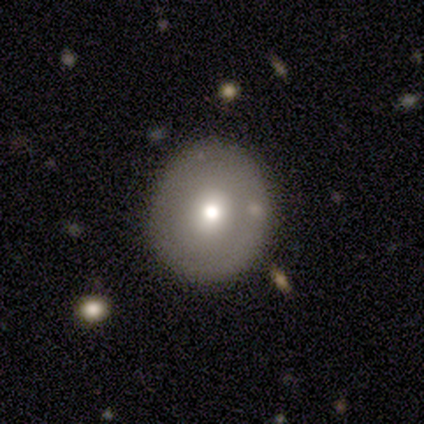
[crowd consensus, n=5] Smooth or featured: smooth — 40% (tied with featured or disk — 40%)
How rounded: round — 100%
Merging: none — 75% (minor disturbance — 25%)